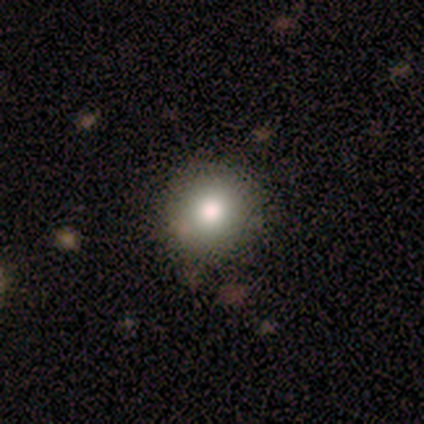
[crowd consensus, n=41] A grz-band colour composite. It shows a smooth galaxy with no disk features (83%) that is round (91%). Merging: none (76%).